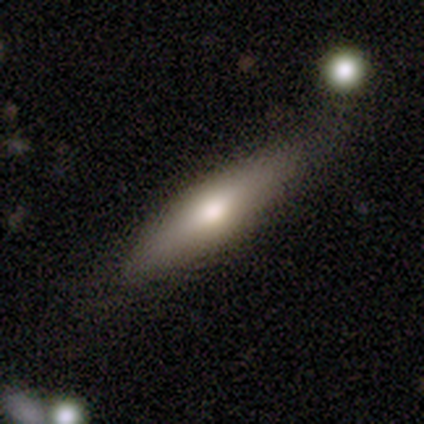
Smooth or featured: smooth — 100%
How rounded: cigar-shaped — 67% (in between — 33%)
Merging: none — 83% (minor disturbance — 17%)